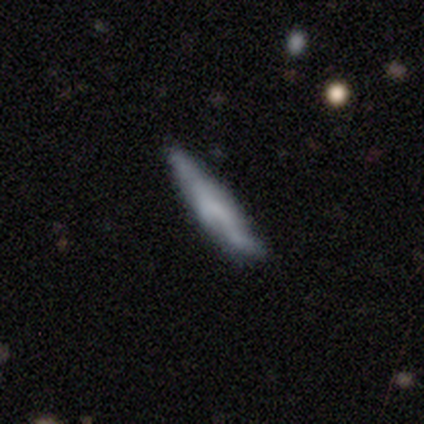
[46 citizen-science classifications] Smooth or featured? 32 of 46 (70%) said smooth. How rounded? 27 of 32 (84%) said cigar-shaped. Merging? 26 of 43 (60%) said none.